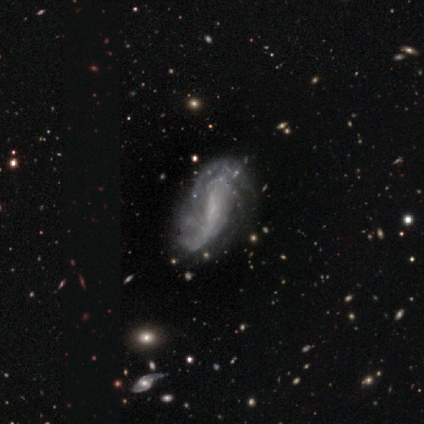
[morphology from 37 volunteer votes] Smooth or featured?
  - featured or disk: 78% *
  - smooth: 14%
  - star or artifact: 8%
Edge-on disk?
  - no: 100% *
  - yes: 0%
Bar?
  - weak: 45% * (tied)
  - no: 45% * (tied)
  - strong: 10%
Spiral arms?
  - yes: 90% *
  - no: 10%
Spiral winding?
  - loose: 42% *
  - tight: 38%
  - medium: 19%
Spiral arm count?
  - can't tell: 42% *
  - 2: 35%
  - 4: 15%
  - 3: 8%
  - 1: 0%
  - more than 4: 0%
Bulge size?
  - none: 52% *
  - small: 38%
  - moderate: 10%
  - dominant: 0%
  - large: 0%
Merging?
  - none: 50% *
  - minor disturbance: 26%
  - major disturbance: 21%
  - merger: 3%